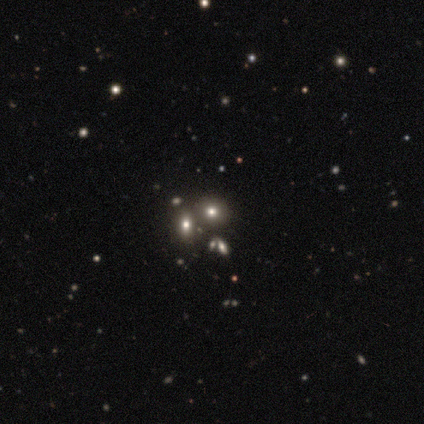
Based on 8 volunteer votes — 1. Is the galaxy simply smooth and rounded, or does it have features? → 50% smooth, 38% star or artifact, 12% featured or disk.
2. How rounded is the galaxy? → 75% in between, 25% round, 0% cigar-shaped.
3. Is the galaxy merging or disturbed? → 60% none, 40% merger, 0% minor disturbance, 0% major disturbance.